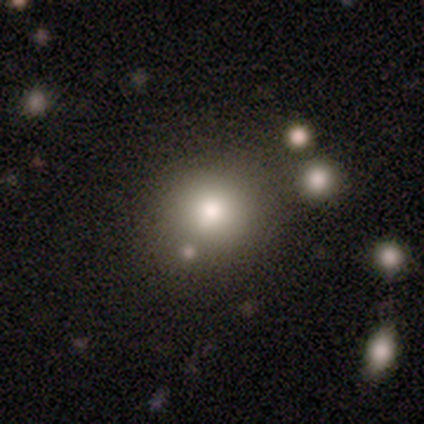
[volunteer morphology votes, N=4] This appears to be a smooth galaxy with no disk features (75%) that is round (100%). Merging: none (67%).